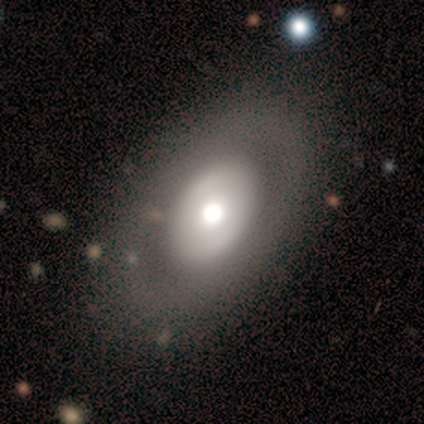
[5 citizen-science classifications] This appears to be a featured or disk galaxy (80%) with no bar (100%), no spiral arms (100%) and a moderate central bulge (100%). Merging: none (100%).